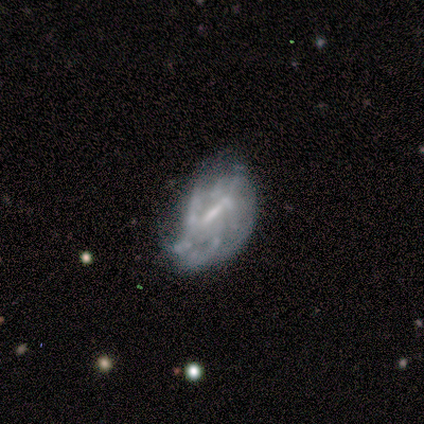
Volunteers were most divided on "smooth or featured": featured or disk: 60%, smooth: 40%, star or artifact: 0%. More confident: edge-on disk — no (100%); bulge size — small (100%); bar — strong (67%); spiral arms — no (67%); merging — none (60%).